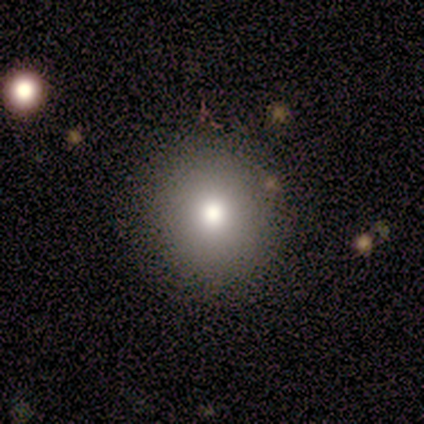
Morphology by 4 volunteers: smooth-or-featured: smooth: 100% | featured or disk: 0% | star or artifact: 0%
  how-rounded: round: 50% (tied) | in between: 50% (tied) | cigar-shaped: 0%
  merging: none: 100% | minor disturbance: 0% | major disturbance: 0% | merger: 0%